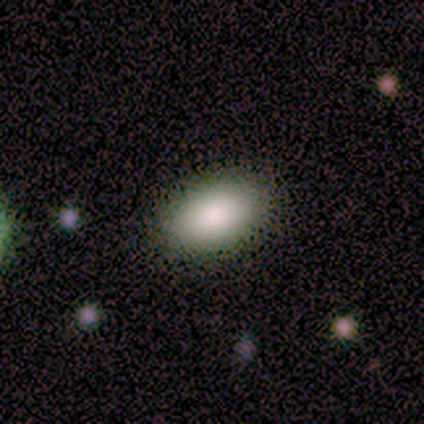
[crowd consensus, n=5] Smooth or featured? 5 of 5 (100%) said smooth. How rounded? 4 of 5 (80%) said in between. Merging? 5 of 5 (100%) said none.